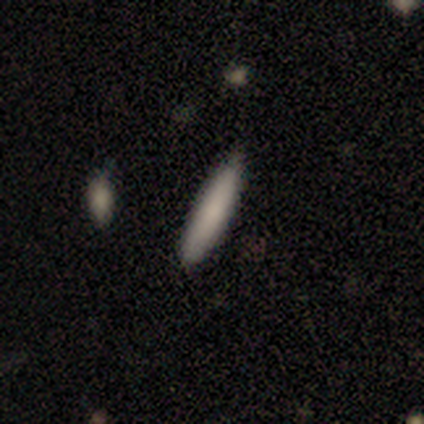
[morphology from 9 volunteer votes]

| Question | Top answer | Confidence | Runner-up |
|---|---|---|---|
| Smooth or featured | smooth | 89% | featured or disk (11%) |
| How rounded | cigar-shaped | 75% | in between (25%) |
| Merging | none | 78% | minor disturbance (11%) |